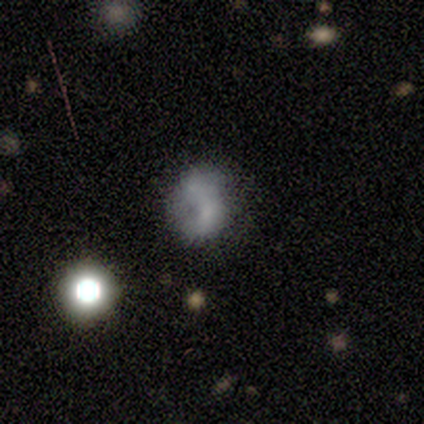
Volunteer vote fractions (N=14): Overall: smooth (57%; featured or disk 21%). How rounded: round (50%, tied with in between). Merging: none (55%; major disturbance 27%).